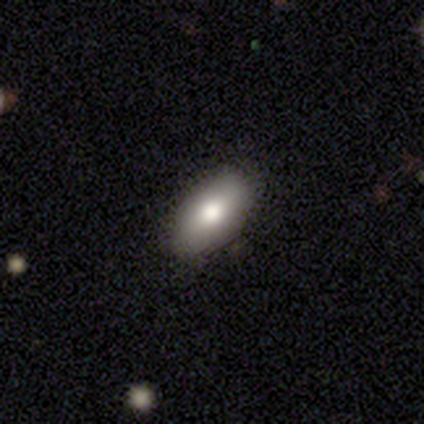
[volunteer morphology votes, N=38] Smooth or featured? smooth (82%)
How rounded? in between (97%)
Merging? none (97%)